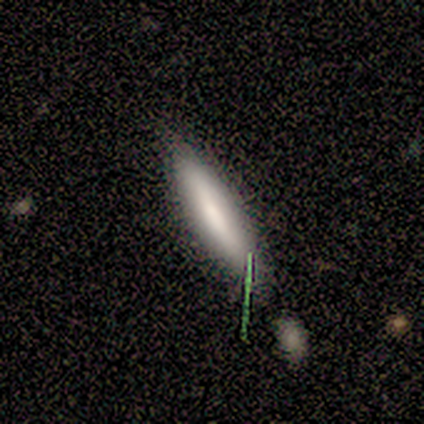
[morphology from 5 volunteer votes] Overall: smooth (60%; featured or disk 40%). How rounded: cigar-shaped (100%). Merging: none (40%, tied with minor disturbance).